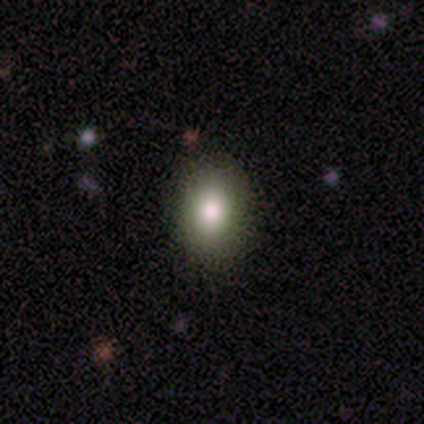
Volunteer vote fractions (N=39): Smooth or featured? smooth (79%)
How rounded? in between (74%)
Merging? none (83%)